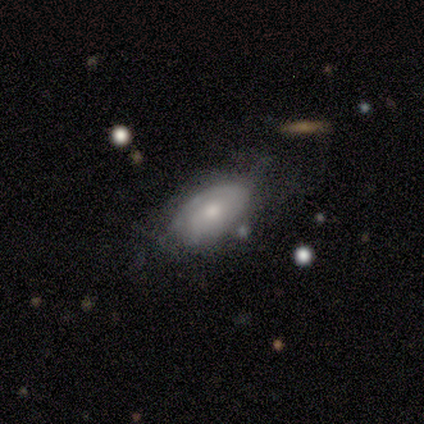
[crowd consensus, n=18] Smooth or featured: featured or disk — 61% (smooth — 33%)
Edge-on disk: no — 100%
Bar: no — 73% (weak — 18%)
Spiral arms: yes — 64% (no — 36%)
Spiral winding: medium — 57% (tight — 43%)
Spiral arm count: 2 — 43% (tied with can't tell — 43%)
Bulge size: moderate — 82% (large — 9%)
Merging: none — 47% (minor disturbance — 41%)